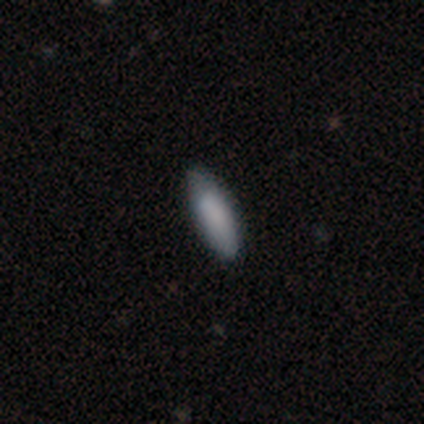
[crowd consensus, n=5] A smooth galaxy with no disk features (80%) that is cigar-shaped (75%). Merging: none (60%).